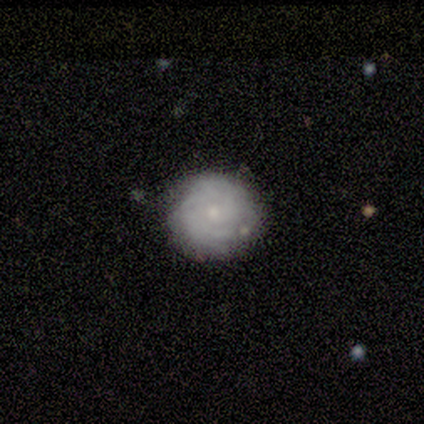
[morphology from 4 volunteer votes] smooth_or_featured: featured or disk (p=0.75) [alt: smooth p=0.25]
disk_edge_on: no (p=1.00)
bar: no (p=1.00)
has_spiral_arms: yes (p=0.67) [alt: no p=0.33]
spiral_winding: tight (p=1.00)
spiral_arm_count: 2 (p=0.50) [tied with: can't tell p=0.50]
bulge_size: small (p=0.67) [alt: moderate p=0.33]
merging: none (p=1.00)